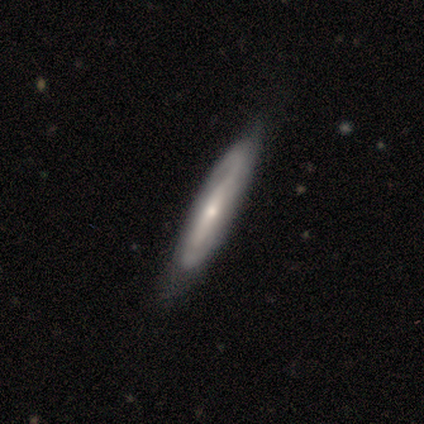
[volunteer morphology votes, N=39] smooth-or-featured: featured or disk: 72% | smooth: 23% | star or artifact: 5%
  disk-edge-on: no: 75% | yes: 25%
    bar: strong: 52% | weak: 24% | no: 24%
    has-spiral-arms: yes: 86% | no: 14%
      spiral-winding: medium: 61% | loose: 22% | tight: 17%
      spiral-arm-count: 2: 78% | can't tell: 17% | 4: 6% | 1: 0% | 3: 0% | more than 4: 0%
    bulge-size: small: 57% | moderate: 29% | large: 10% | dominant: 5% | none: 0%
  merging: none: 73% | minor disturbance: 27% | major disturbance: 0% | merger: 0%